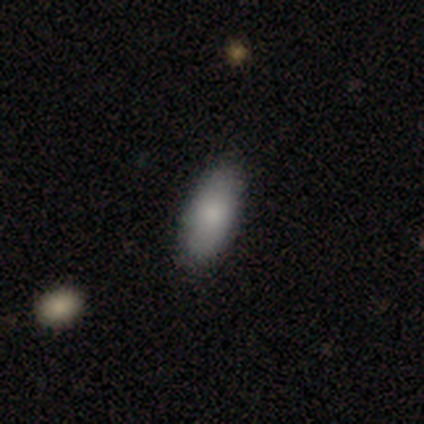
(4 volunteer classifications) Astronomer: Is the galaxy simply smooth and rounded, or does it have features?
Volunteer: smooth — 75%.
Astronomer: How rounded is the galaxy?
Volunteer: in between — 67%.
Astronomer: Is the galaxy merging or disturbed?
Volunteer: none — 100%.